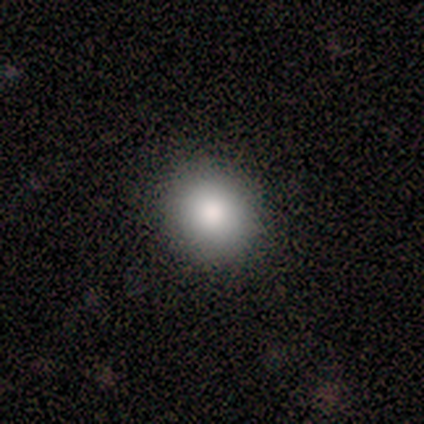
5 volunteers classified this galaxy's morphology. Smooth or featured?
  - smooth: 100% *
  - featured or disk: 0%
  - star or artifact: 0%
How rounded?
  - round: 80% *
  - in between: 20%
  - cigar-shaped: 0%
Merging?
  - none: 60% *
  - major disturbance: 40%
  - minor disturbance: 0%
  - merger: 0%